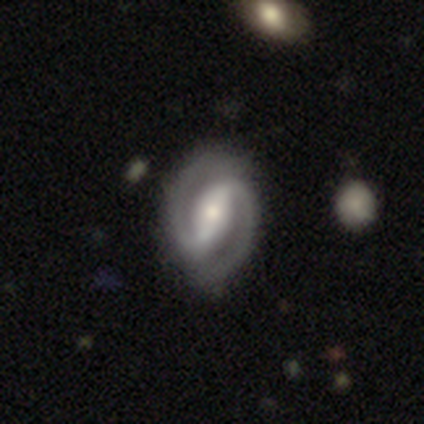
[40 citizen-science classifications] Smooth or featured? 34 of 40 (85%) said featured or disk. Edge-on disk? 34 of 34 (100%) said no. Bar? 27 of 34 (79%) said strong. Spiral arms? 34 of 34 (100%) said yes. Spiral winding? 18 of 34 (53%) said tight. Spiral arm count? 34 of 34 (100%) said 2. Bulge size? 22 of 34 (65%) said moderate. Merging? 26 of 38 (68%) said none.